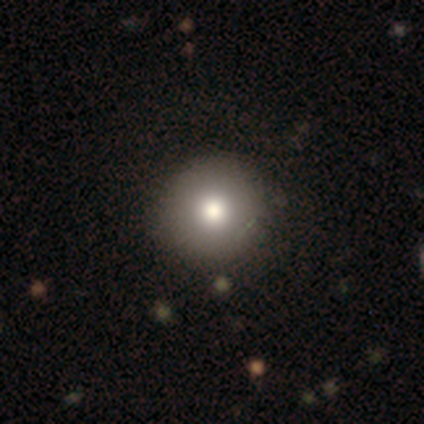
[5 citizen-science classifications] Smooth or featured? smooth (60%)
How rounded? round (100%)
Merging? none (100%)